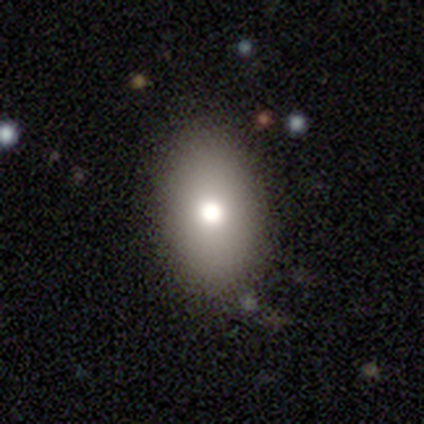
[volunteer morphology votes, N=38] smooth 84%, star or artifact 11%, featured or disk 5%. Down the decision tree: how rounded — in between (91%); merging — none (91%).